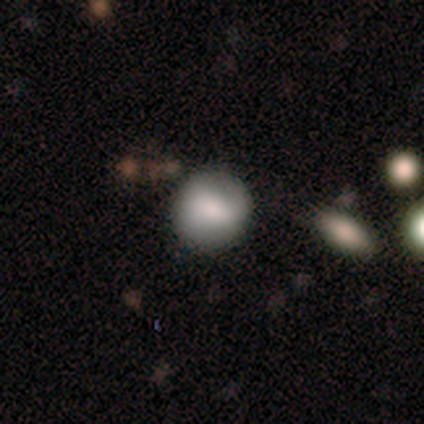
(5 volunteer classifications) smooth_or_featured: smooth (p=0.80) [alt: featured or disk p=0.20]
how_rounded: round (p=1.00)
merging: none (p=1.00)